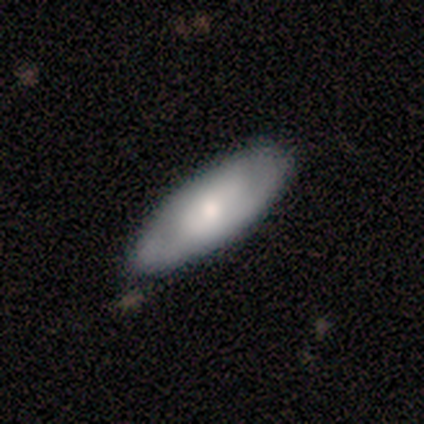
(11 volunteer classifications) Smooth or featured? smooth (73%)
How rounded? in between (75%)
Merging? none (73%)